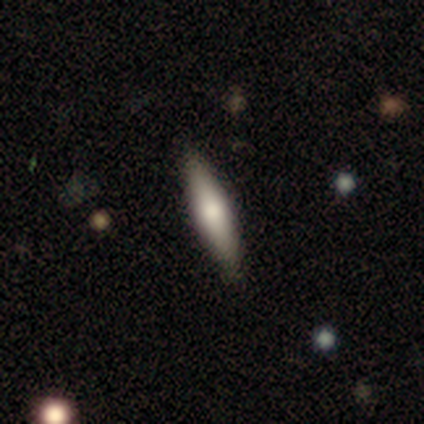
This appears to be a featured or disk galaxy (60%) viewed edge-on (100%) with a rounded central bulge (100%). Merging: none (100%).